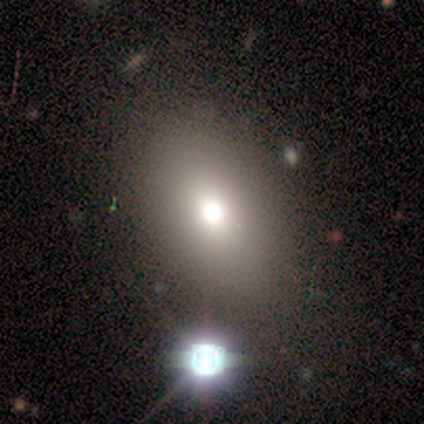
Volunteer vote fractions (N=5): A star or artifact, not a galaxy (60%).

Vote fractions:
- Smooth or featured? star or artifact: 60% / smooth: 40% / featured or disk: 0%